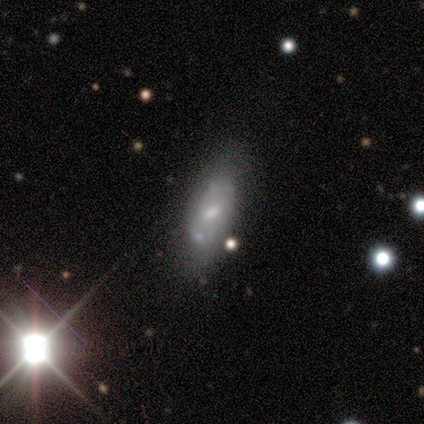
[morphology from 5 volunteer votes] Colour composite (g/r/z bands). It shows a smooth galaxy with no disk features (40%, tied with featured or disk) that is in between round and cigar-shaped (100%). Merging: none (50%, tied with minor disturbance).